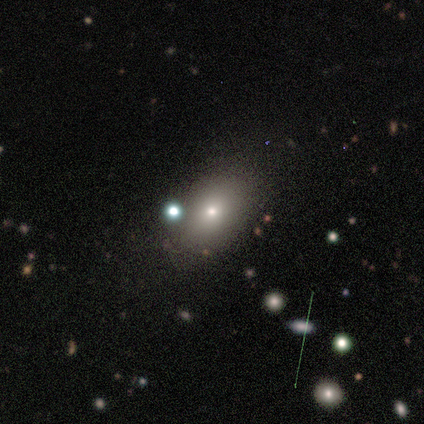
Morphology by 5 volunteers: Overall: smooth (40%, tied with star or artifact). How rounded: in between (100%). Merging: none (100%).